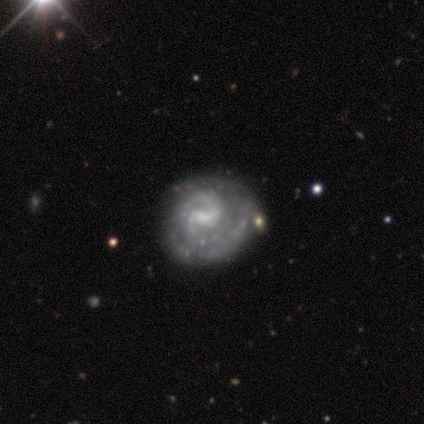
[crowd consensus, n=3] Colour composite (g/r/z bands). It shows a featured or disk galaxy (100%) with a weak bar (67%), 2 (67%) tight (33%, tied with medium and loose) spiral arms (100%) and a small central bulge (67%). Merging: none (67%).